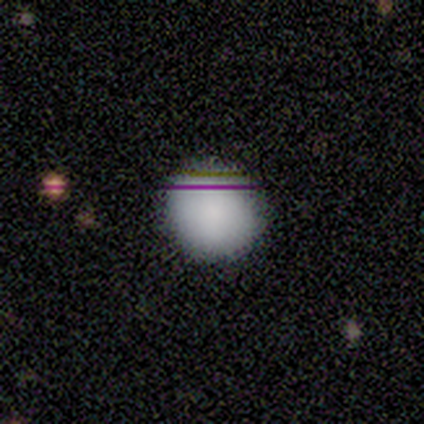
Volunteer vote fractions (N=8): Overall: smooth (100%). How rounded: round (100%). Merging: none (88%).